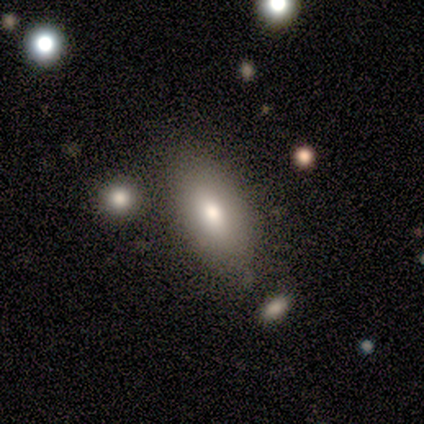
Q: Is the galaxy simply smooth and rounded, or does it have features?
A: smooth — 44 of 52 (85%).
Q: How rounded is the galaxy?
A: in between — 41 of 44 (93%).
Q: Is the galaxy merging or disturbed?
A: none — 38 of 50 (76%).